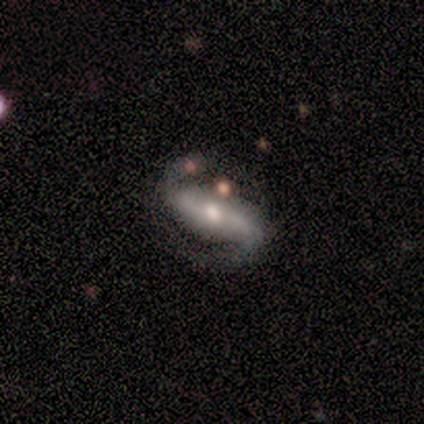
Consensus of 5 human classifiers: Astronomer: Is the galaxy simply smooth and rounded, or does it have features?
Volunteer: featured or disk — 80%.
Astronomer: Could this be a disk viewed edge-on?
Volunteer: no — 100%.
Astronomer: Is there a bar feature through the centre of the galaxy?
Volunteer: strong — 100%.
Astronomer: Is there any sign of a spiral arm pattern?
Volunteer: yes — 100%.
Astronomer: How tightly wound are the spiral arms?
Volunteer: medium — 50%, tied with loose at 50%.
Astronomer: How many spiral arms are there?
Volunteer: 2 — 100%.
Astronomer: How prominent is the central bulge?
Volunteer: moderate — 100%.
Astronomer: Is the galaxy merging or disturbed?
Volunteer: none — 60%.